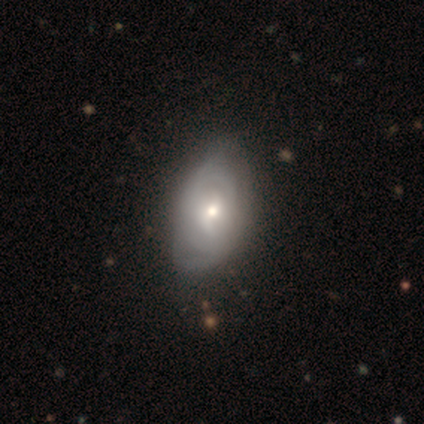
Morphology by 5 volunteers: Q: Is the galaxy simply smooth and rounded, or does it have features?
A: featured or disk — 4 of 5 (80%).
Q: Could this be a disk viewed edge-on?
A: no — 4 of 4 (100%).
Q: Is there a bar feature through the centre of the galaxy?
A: no — 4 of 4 (100%).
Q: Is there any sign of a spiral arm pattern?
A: yes — 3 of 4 (75%).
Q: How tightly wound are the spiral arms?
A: tight — 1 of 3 (33%, tied with medium and loose).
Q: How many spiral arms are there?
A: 2 — 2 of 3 (67%).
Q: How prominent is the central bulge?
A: small — 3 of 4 (75%).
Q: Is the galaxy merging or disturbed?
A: none — 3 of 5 (60%).